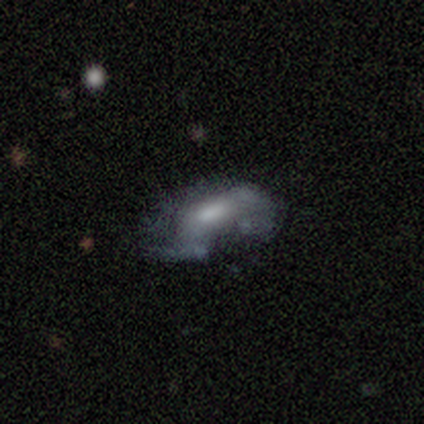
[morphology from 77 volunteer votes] This is possibly a featured or disk galaxy (55%). It is clearly not viewed edge-on (95%). Bar: possibly no (52%). Spiral arm pattern: likely no (70%). Central bulge: marginally moderate (40%). Merging: marginally major disturbance (20%).